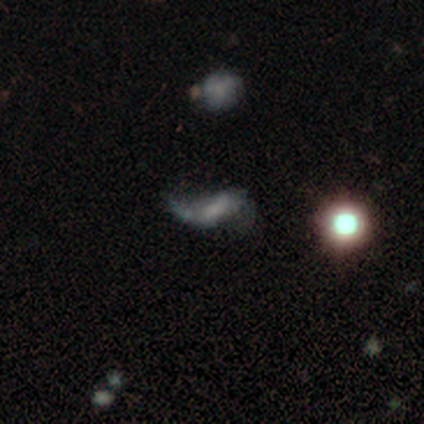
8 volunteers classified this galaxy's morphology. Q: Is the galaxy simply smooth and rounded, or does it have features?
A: featured or disk — 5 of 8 (62%).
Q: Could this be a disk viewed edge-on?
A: no — 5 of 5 (100%).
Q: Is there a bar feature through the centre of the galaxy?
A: no — 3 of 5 (60%).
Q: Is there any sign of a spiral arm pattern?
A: yes — 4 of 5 (80%).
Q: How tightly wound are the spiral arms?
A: loose — 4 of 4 (100%).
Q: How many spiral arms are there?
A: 2 — 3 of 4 (75%).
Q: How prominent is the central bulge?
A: none — 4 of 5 (80%).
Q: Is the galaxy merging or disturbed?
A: none — 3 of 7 (43%).